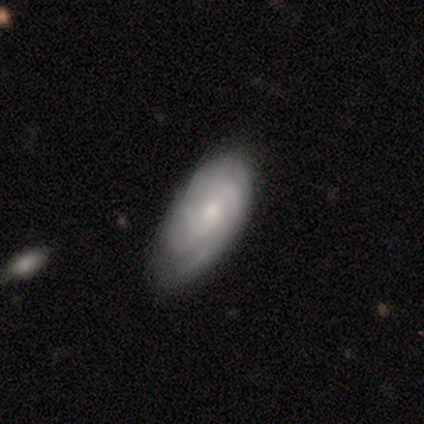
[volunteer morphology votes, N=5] Smooth or featured?
  - featured or disk: 80% *
  - star or artifact: 20%
  - smooth: 0%
Edge-on disk?
  - no: 75% *
  - yes: 25%
Bar?
  - weak: 67% *
  - no: 33%
  - strong: 0%
Spiral arms?
  - yes: 100% *
  - no: 0%
Spiral winding?
  - tight: 100% *
  - medium: 0%
  - loose: 0%
Spiral arm count?
  - 3: 67% *
  - can't tell: 33%
  - 1: 0%
  - 2: 0%
  - 4: 0%
  - more than 4: 0%
Bulge size?
  - moderate: 67% *
  - small: 33%
  - dominant: 0%
  - large: 0%
  - none: 0%
Merging?
  - none: 100% *
  - minor disturbance: 0%
  - major disturbance: 0%
  - merger: 0%